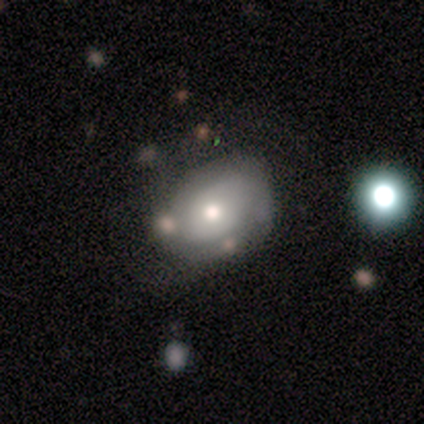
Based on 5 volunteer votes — smooth_or_featured: smooth (p=1.00)
how_rounded: in between (p=0.60) [alt: round p=0.40]
merging: none (p=0.60) [alt: minor disturbance p=0.20]